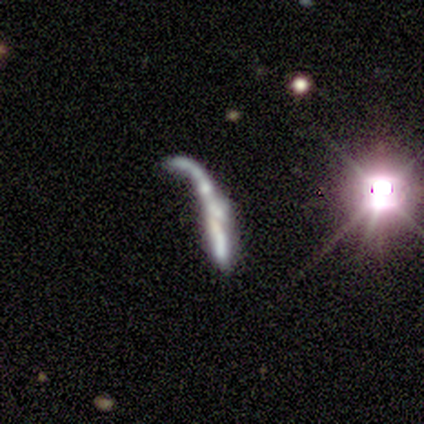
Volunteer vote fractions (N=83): This is likely a featured or disk galaxy (66%). It is likely not viewed edge-on (62%). Bar: clearly no (85%). Spiral arm pattern: likely no (68%). Central bulge: possibly none (59%). Merging: marginally merger (40%).